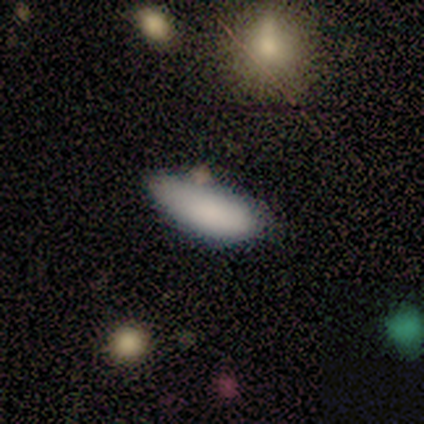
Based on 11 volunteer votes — Smooth or featured: smooth — 91% (featured or disk — 9%)
How rounded: in between — 70% (cigar-shaped — 30%)
Merging: minor disturbance — 55% (none — 36%)